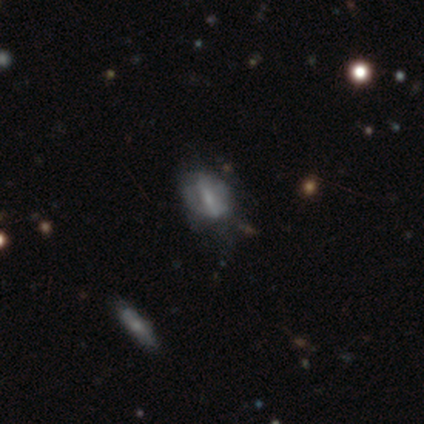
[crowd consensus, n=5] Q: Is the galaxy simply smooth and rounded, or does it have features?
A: featured or disk — 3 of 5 (60%).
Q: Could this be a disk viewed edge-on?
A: yes — 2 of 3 (67%).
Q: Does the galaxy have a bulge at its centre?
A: none — 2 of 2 (100%).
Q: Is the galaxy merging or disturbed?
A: none — 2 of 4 (50%).